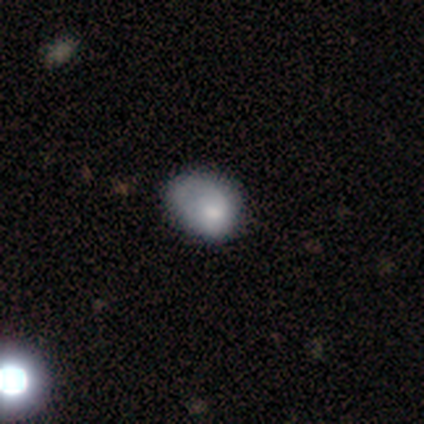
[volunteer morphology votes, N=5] A smooth galaxy with no disk features (80%) that is in between round and cigar-shaped (100%). Merging: minor disturbance (40%, tied with major disturbance).